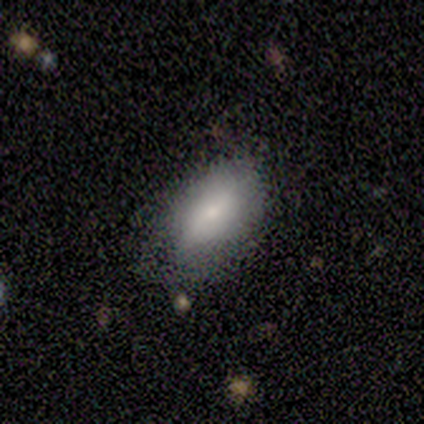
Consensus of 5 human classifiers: smooth-or-featured: smooth: 80% | featured or disk: 20% | star or artifact: 0%
  how-rounded: in between: 75% | cigar-shaped: 25% | round: 0%
  merging: none: 80% | minor disturbance: 20% | major disturbance: 0% | merger: 0%